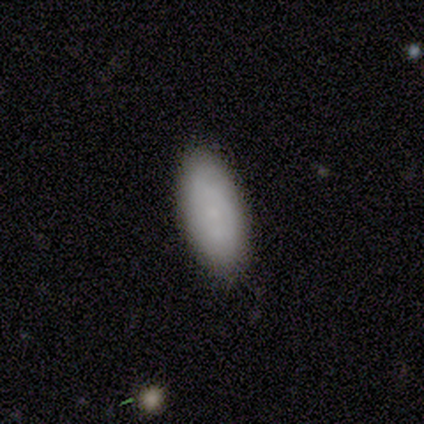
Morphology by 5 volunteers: Smooth or featured? 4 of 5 (80%) said smooth. How rounded? 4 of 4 (100%) said in between. Merging? 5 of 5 (100%) said none.